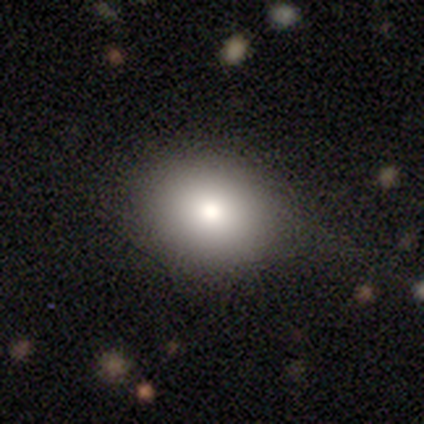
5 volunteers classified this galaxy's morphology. Smooth or featured?
  - smooth: 60% *
  - featured or disk: 40%
  - star or artifact: 0%
How rounded?
  - round: 67% *
  - in between: 33%
  - cigar-shaped: 0%
Merging?
  - none: 100% *
  - minor disturbance: 0%
  - major disturbance: 0%
  - merger: 0%